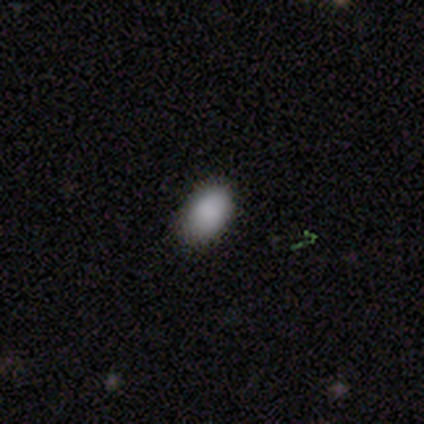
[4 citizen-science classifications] Smooth or featured?
  - smooth: 100% *
  - featured or disk: 0%
  - star or artifact: 0%
How rounded?
  - in between: 100% *
  - round: 0%
  - cigar-shaped: 0%
Merging?
  - none: 100% *
  - minor disturbance: 0%
  - major disturbance: 0%
  - merger: 0%